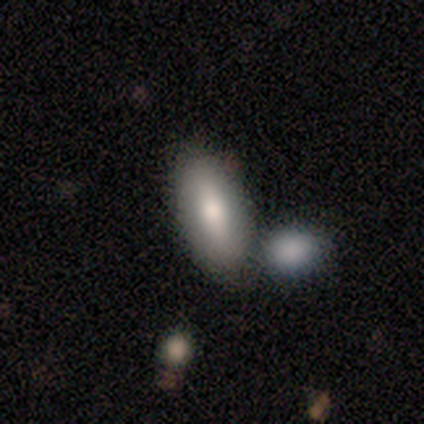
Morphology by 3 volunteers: Overall: smooth (100%). How rounded: in between (67%; cigar-shaped 33%). Merging: none (100%).